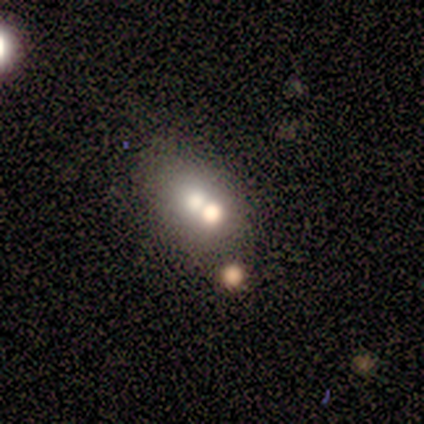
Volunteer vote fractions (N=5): smooth-or-featured: smooth: 60% | featured or disk: 20% | star or artifact: 20%
  how-rounded: cigar-shaped: 67% | round: 33% | in between: 0%
  merging: none: 50% | major disturbance: 25% | merger: 25% | minor disturbance: 0%